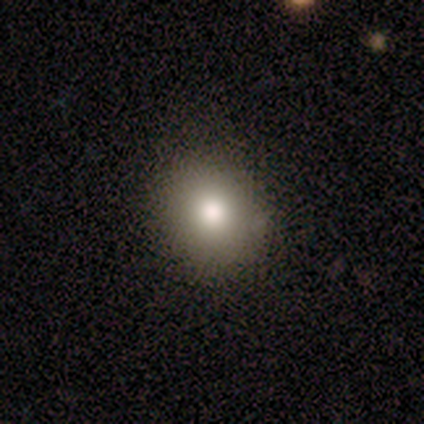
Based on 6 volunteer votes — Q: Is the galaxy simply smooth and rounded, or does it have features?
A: smooth — 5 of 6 (83%).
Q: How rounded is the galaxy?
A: round — 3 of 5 (60%).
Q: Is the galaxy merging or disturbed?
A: none — 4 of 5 (80%).